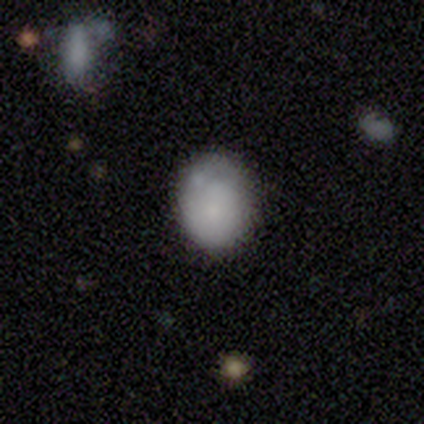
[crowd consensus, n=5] This is clearly a smooth galaxy (80%). How rounded: likely round (75%). Merging: likely none (60%).